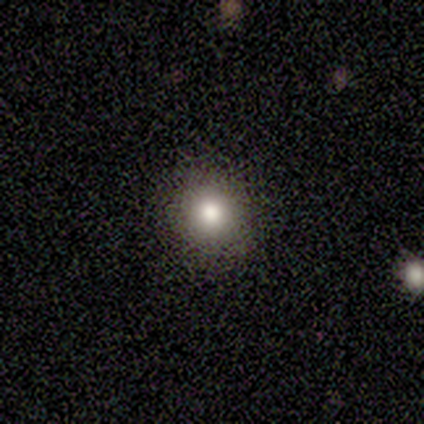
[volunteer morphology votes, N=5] Smooth or featured?
  - smooth: 100% *
  - featured or disk: 0%
  - star or artifact: 0%
How rounded?
  - round: 100% *
  - in between: 0%
  - cigar-shaped: 0%
Merging?
  - none: 100% *
  - minor disturbance: 0%
  - major disturbance: 0%
  - merger: 0%